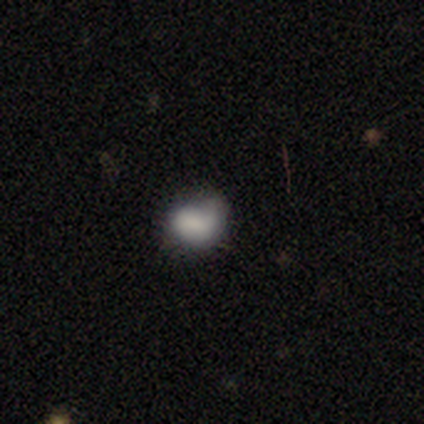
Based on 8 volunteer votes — Volunteers were most divided on "merging" (2-way tie): minor disturbance: 38%, major disturbance: 38%, none: 12%, merger: 12%. More confident: how rounded — in between (83%); smooth or featured — smooth (75%).